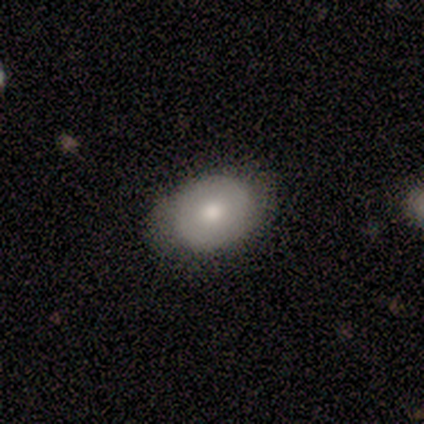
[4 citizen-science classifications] Q: Smooth or featured?
A: featured or disk (50%); runner-up: smooth (25%)
Q: Edge-on disk?
A: no (100%)
Q: Bar?
A: strong (50%); tied with: no (50%)
Q: Spiral arms?
A: yes (50%); tied with: no (50%)
Q: Spiral winding?
A: tight (100%)
Q: Spiral arm count?
A: 2 (100%)
Q: Bulge size?
A: moderate (50%); tied with: small (50%)
Q: Merging?
A: minor disturbance (67%); runner-up: none (33%)